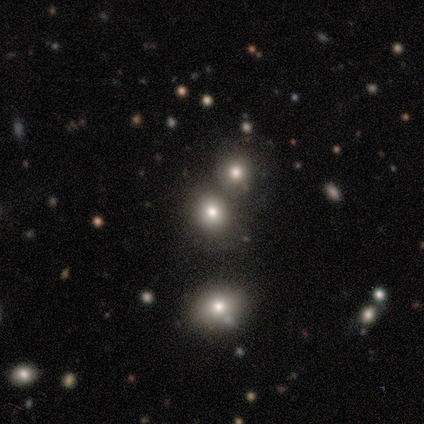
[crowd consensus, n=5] A smooth galaxy with no disk features (80%) that is round (100%). Merging: none (75%).